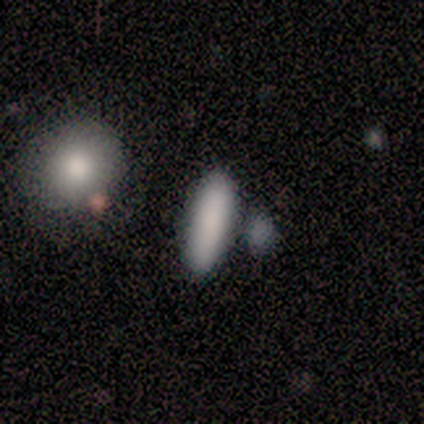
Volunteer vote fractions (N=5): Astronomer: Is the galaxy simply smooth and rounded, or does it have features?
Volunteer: smooth — 100%.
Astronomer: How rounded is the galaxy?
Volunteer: in between — 60% (runner-up: cigar-shaped, 40%).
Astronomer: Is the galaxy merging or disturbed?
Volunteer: none — 80%.